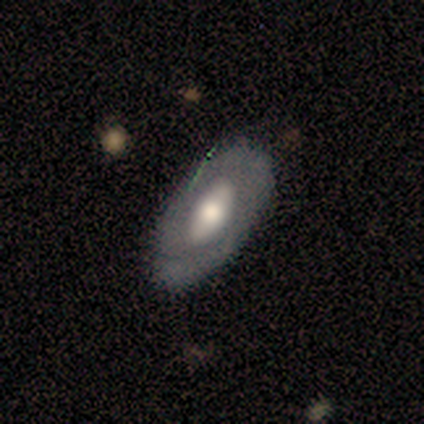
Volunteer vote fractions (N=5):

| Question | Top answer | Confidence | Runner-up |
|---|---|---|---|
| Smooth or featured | smooth | 80% | featured or disk (20%) |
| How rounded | in between | 75% | cigar-shaped (25%) |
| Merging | none | 80% | minor disturbance (20%) |